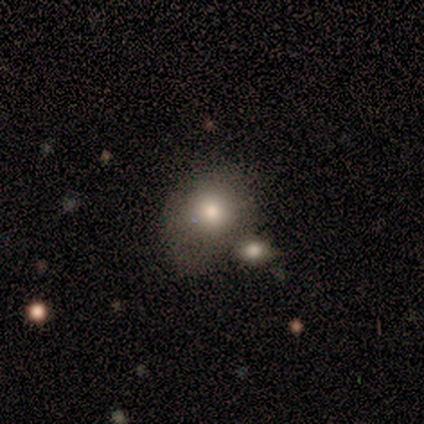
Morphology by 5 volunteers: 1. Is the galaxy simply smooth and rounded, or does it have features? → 100% smooth, 0% featured or disk, 0% star or artifact.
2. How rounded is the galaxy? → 60% round, 40% in between, 0% cigar-shaped.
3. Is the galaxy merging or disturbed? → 40% minor disturbance (tied), 40% merger (tied), 20% none, 0% major disturbance.